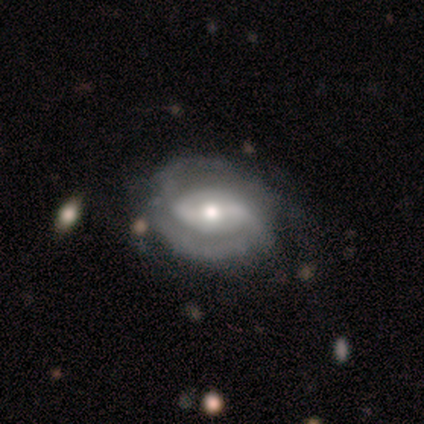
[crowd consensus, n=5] Morphology: type=featured or disk (80%); edge-on=no (100%); bar=strong (50%, tied with weak); spiral arms=yes (100%); winding=tight (75%); arm count=2 (75%); bulge=moderate (100%); merging=none (75%).